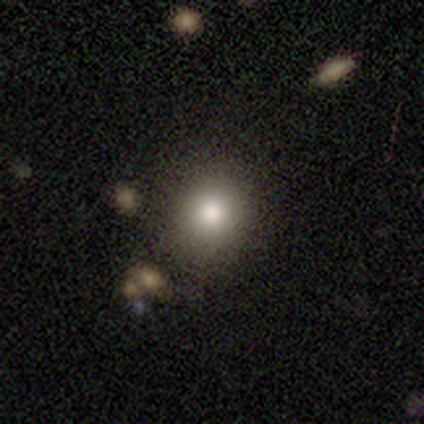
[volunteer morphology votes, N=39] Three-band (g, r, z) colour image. It shows a smooth galaxy with no disk features (77%) that is round (83%). Merging: none (68%).